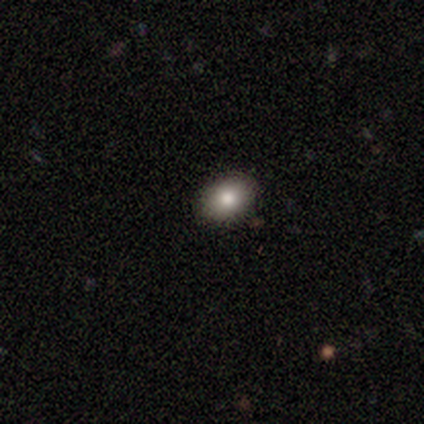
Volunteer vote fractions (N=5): Overall: smooth (80%). How rounded: in between (75%). Merging: none (100%).